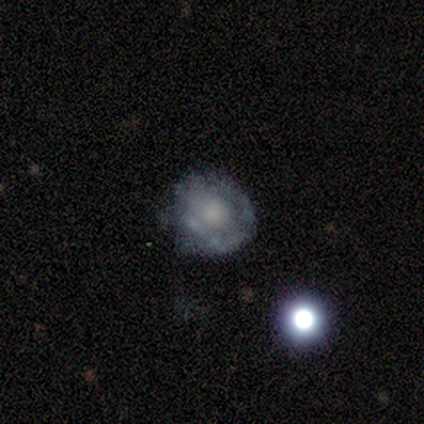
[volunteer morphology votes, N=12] This is possibly a smooth galaxy (50%). How rounded: clearly round (83%). Merging: possibly none (55%).